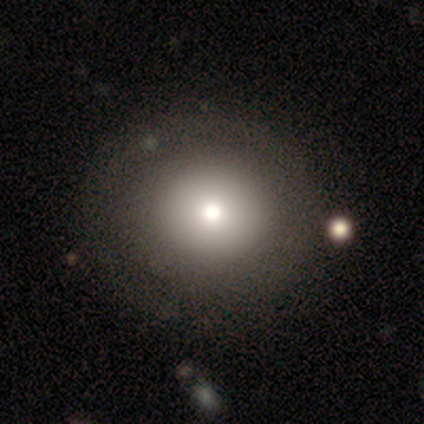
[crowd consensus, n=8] Morphology: type=smooth (75%); roundness=round (83%); merging=none (86%).